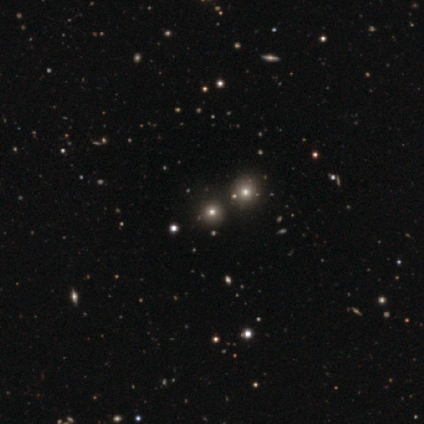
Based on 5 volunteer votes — This appears to be a smooth galaxy with no disk features (40%, tied with star or artifact) that is round (100%). Merging: none (100%).